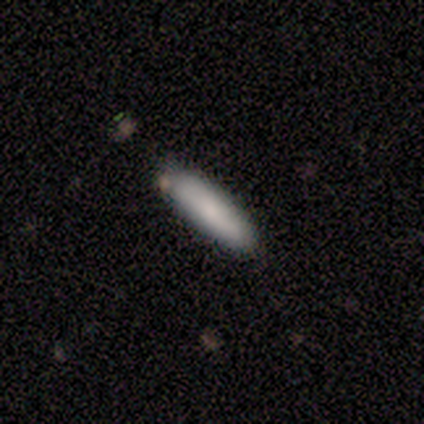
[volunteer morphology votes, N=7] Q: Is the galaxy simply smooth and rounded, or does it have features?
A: smooth — 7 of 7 (100%).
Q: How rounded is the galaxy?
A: cigar-shaped — 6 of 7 (86%).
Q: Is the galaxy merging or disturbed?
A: none — 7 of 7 (100%).